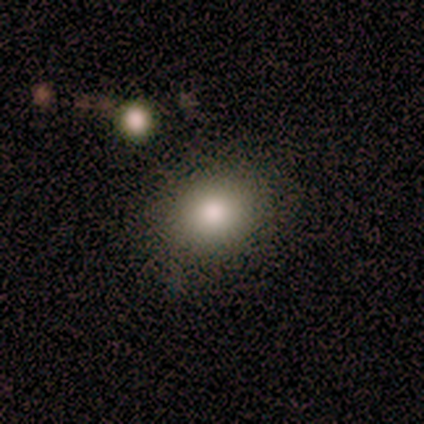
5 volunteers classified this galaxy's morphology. smooth 80%, star or artifact 20%, featured or disk 0%. Down the decision tree: how rounded — round (50%, tied with in between); merging — none (100%).